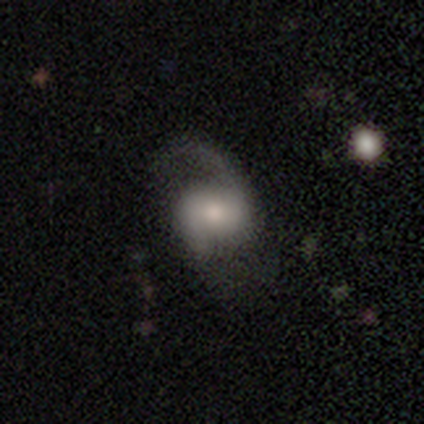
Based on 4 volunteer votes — Morphology: type=featured or disk (75%); edge-on=no (100%); bar=weak (67%); spiral arms=yes (67%); winding=tight (50%, tied with medium); arm count=2 (100%); bulge=moderate (100%); merging=none (75%).